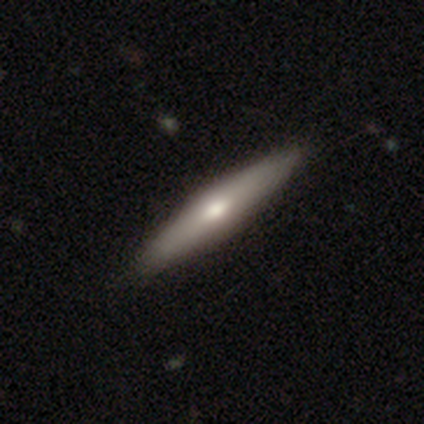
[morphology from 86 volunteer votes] Volunteers were most divided on "smooth or featured": smooth: 50%, featured or disk: 47%, star or artifact: 3%. More confident: how rounded — cigar-shaped (93%); merging — none (93%).